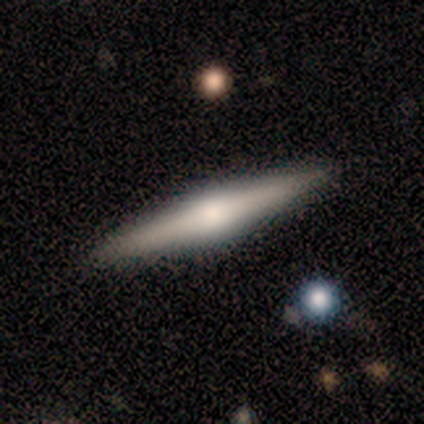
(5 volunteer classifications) Q: Smooth or featured?
A: featured or disk (80%); runner-up: smooth (20%)
Q: Edge-on disk?
A: yes (75%); runner-up: no (25%)
Q: Edge-on bulge?
A: rounded (100%)
Q: Merging?
A: none (80%); runner-up: minor disturbance (20%)